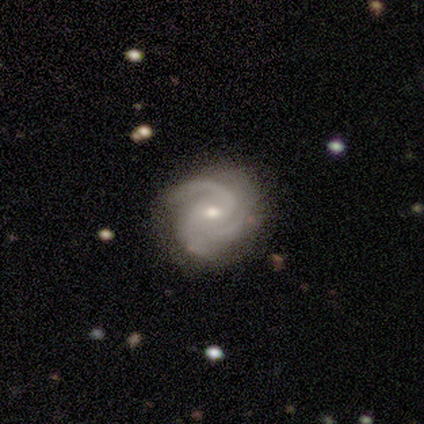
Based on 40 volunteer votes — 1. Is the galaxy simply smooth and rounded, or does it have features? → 90% featured or disk, 5% smooth, 5% star or artifact.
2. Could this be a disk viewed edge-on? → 100% no, 0% yes.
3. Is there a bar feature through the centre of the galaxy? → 47% weak (tied), 47% no (tied), 6% strong.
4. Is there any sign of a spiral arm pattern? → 100% yes, 0% no.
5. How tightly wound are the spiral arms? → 50% tight, 42% medium, 8% loose.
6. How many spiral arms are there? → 92% 3, 8% 2, 0% 1, 0% 4, 0% more than 4, 0% can't tell.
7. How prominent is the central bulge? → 58% moderate, 36% small, 6% large, 0% dominant, 0% none.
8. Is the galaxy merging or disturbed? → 76% none, 18% minor disturbance, 5% major disturbance, 0% merger.